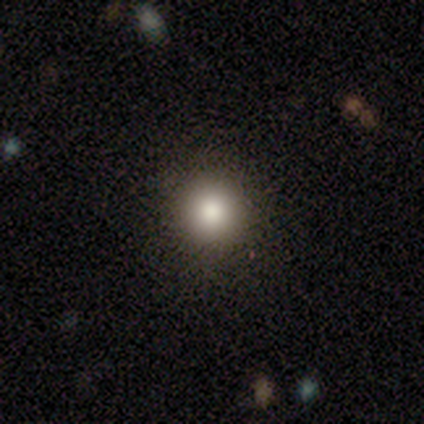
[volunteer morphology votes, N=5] Overall: smooth (80%). How rounded: round (100%). Merging: none (75%).